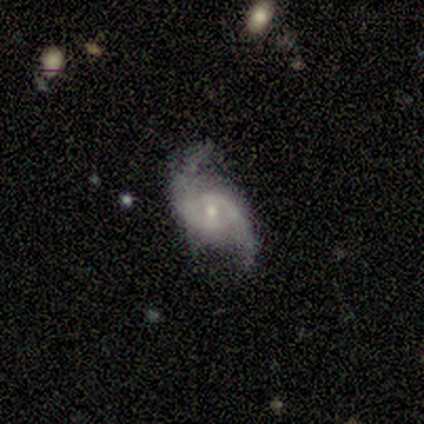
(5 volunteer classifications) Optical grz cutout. It shows a featured or disk galaxy (80%) with no bar (100%), 2 (100%) loose (67%) spiral arms (75%) and a small central bulge (75%). Merging: none (75%).